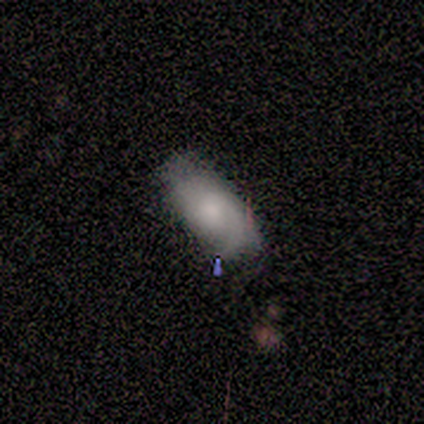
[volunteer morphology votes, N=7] This appears to be a smooth galaxy with no disk features (71%) that is in between round and cigar-shaped (80%). Merging: none (57%).